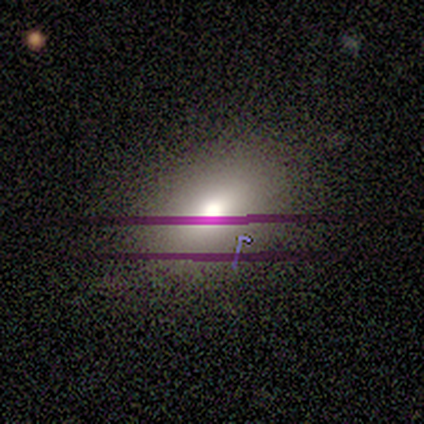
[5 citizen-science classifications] Morphology: type=star or artifact (60%).